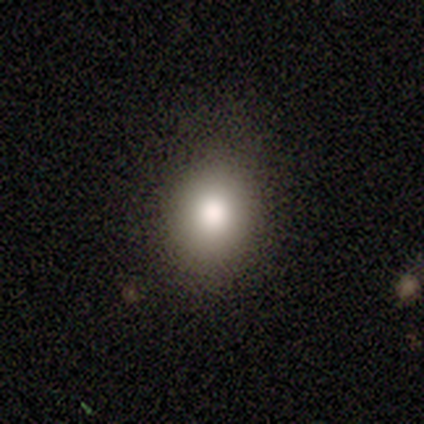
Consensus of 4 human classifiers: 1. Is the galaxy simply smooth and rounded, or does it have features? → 100% smooth, 0% featured or disk, 0% star or artifact.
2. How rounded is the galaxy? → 100% in between, 0% round, 0% cigar-shaped.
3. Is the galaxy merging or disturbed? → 75% none, 25% minor disturbance, 0% major disturbance, 0% merger.